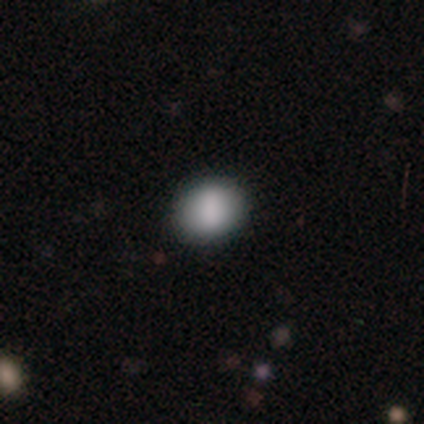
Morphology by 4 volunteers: This is clearly a smooth galaxy (100%). How rounded: possibly round (50%, tied with in between). Merging: clearly none (100%).